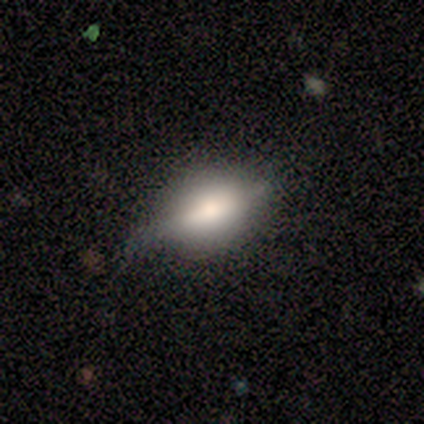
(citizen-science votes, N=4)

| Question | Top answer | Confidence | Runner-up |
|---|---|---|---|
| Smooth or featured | smooth | 50% | tied: featured or disk (50%) |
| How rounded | round | 50% | tied: in between (50%) |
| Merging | none | 75% | minor disturbance (25%) |